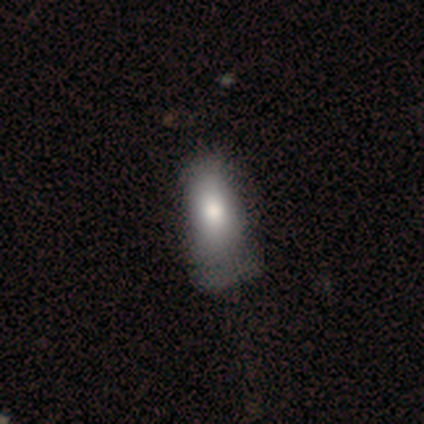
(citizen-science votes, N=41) smooth_or_featured: smooth (p=0.71) [alt: featured or disk p=0.20]
how_rounded: in between (p=0.93) [alt: round p=0.03]
merging: none (p=0.27) [tied with: minor disturbance p=0.27]